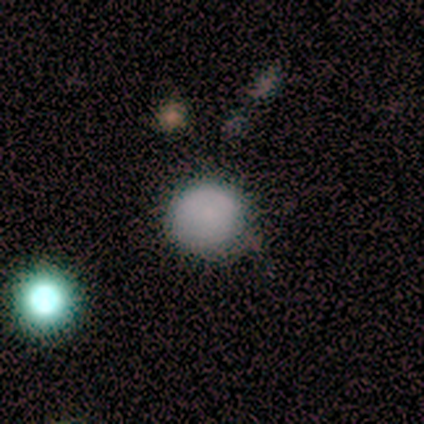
This is clearly a smooth galaxy (100%). How rounded: clearly round (100%). Merging: clearly none (80%).